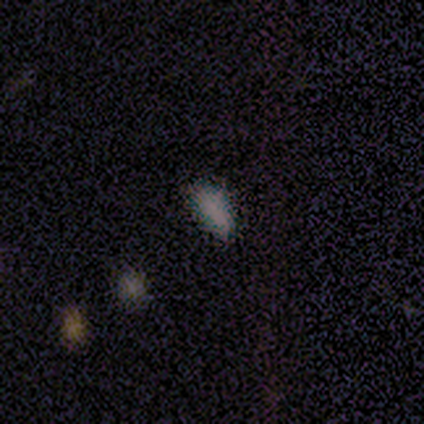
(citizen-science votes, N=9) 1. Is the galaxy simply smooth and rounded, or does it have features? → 56% smooth, 44% star or artifact, 0% featured or disk.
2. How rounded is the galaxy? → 60% in between, 40% cigar-shaped, 0% round.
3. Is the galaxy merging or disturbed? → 100% none, 0% minor disturbance, 0% major disturbance, 0% merger.